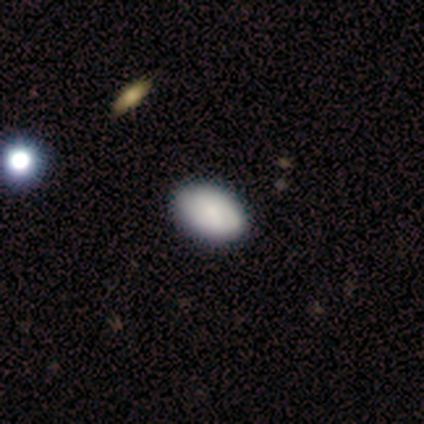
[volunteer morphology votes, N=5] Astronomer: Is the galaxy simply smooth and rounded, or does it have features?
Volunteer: smooth — 60%.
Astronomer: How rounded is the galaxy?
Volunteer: in between — 100%.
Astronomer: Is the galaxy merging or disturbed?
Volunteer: none — 75%.